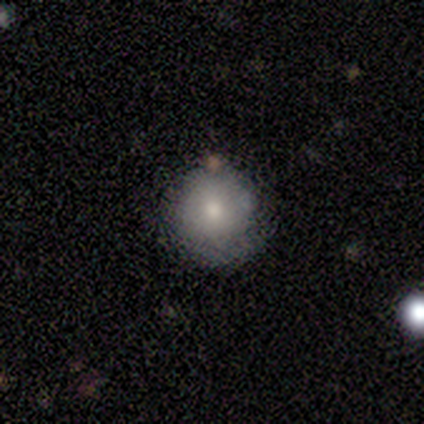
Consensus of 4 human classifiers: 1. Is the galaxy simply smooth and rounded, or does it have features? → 75% smooth, 25% featured or disk, 0% star or artifact.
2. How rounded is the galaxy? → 100% round, 0% in between, 0% cigar-shaped.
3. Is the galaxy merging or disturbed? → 100% none, 0% minor disturbance, 0% major disturbance, 0% merger.